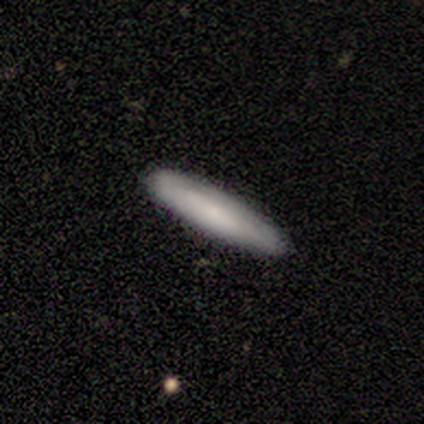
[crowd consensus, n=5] A smooth galaxy with no disk features (60%) that is cigar-shaped (67%). Merging: none (100%).